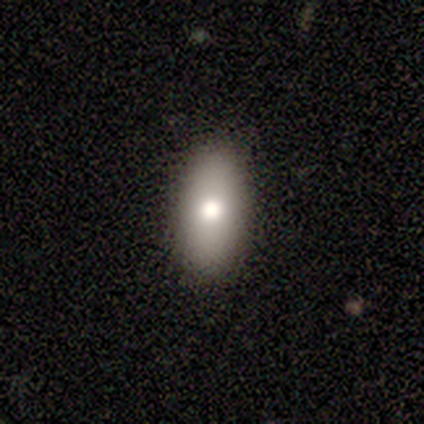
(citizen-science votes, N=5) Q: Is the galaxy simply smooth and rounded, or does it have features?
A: smooth — 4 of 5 (80%).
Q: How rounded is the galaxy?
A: in between — 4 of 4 (100%).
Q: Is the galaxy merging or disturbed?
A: none — 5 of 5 (100%).